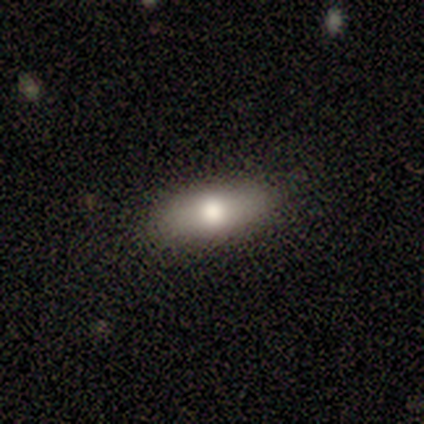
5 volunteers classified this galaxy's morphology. Q: Smooth or featured?
A: smooth (80%); runner-up: star or artifact (20%)
Q: How rounded?
A: in between (100%)
Q: Merging?
A: none (100%)